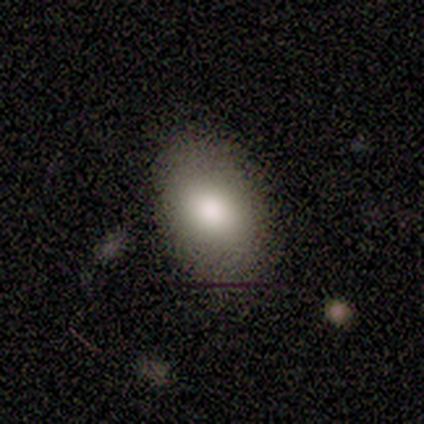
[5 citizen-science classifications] This appears to be a smooth galaxy with no disk features (100%) that is in between round and cigar-shaped (80%). Merging: none (80%).